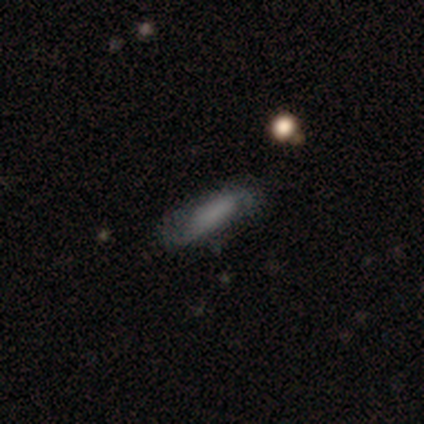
Smooth or featured? 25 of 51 (49%) said smooth. How rounded? 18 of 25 (72%) said in between. Merging? 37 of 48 (77%) said none.